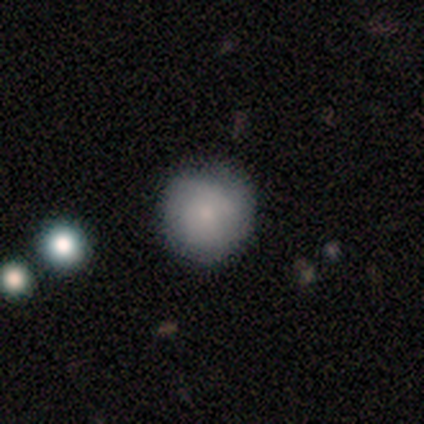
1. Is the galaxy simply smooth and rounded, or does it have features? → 100% smooth, 0% featured or disk, 0% star or artifact.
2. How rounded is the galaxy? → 80% round, 20% in between, 0% cigar-shaped.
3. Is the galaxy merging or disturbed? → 60% none, 20% minor disturbance, 20% major disturbance, 0% merger.